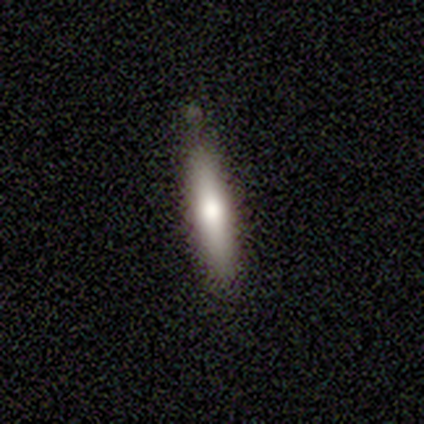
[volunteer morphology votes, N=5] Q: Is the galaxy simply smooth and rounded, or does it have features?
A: smooth — 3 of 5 (60%).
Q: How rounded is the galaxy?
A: cigar-shaped — 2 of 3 (67%).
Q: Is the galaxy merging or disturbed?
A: none — 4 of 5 (80%).